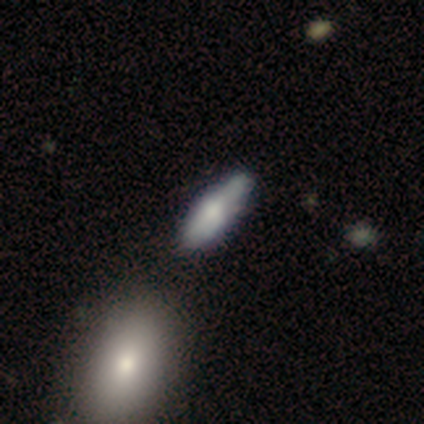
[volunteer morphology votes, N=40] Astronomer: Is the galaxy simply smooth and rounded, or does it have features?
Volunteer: smooth — 62%.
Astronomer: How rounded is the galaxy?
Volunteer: in between — 76%.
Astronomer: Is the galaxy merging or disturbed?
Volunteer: none — 62%.